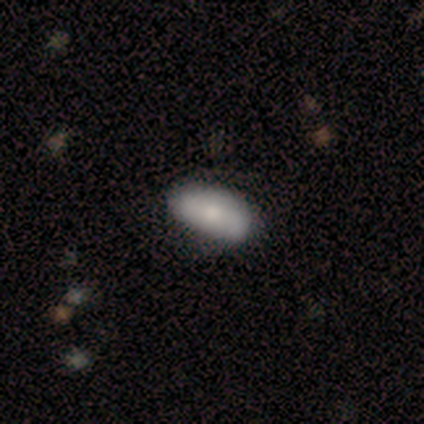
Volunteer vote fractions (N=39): A smooth galaxy with no disk features (72%) that is in between round and cigar-shaped (89%). Merging: none (84%).